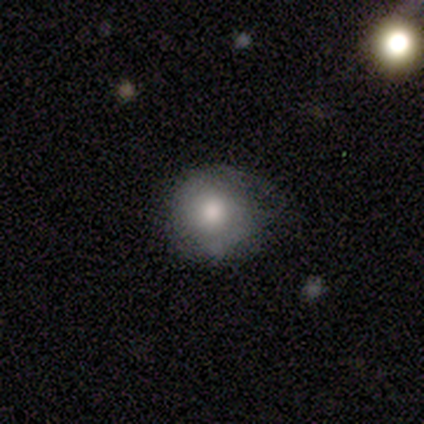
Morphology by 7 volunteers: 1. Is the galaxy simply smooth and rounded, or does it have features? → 71% smooth, 14% featured or disk, 14% star or artifact.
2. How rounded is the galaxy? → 80% round, 20% in between, 0% cigar-shaped.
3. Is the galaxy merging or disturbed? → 50% minor disturbance, 33% none, 17% major disturbance, 0% merger.